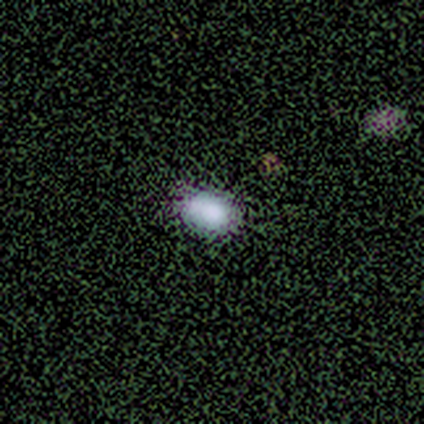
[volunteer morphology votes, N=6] Smooth or featured?
  - smooth: 83% *
  - star or artifact: 17%
  - featured or disk: 0%
How rounded?
  - in between: 60% *
  - round: 40%
  - cigar-shaped: 0%
Merging?
  - none: 100% *
  - minor disturbance: 0%
  - major disturbance: 0%
  - merger: 0%